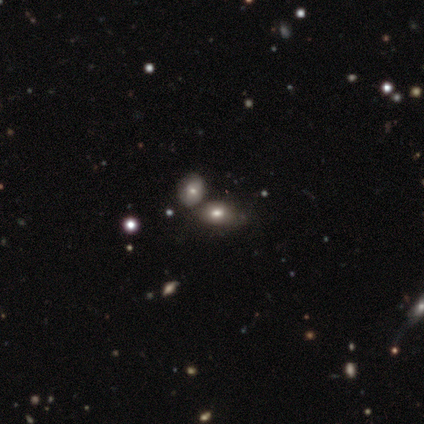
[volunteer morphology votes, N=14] Overall: smooth (64%). How rounded: in between (100%). Merging: merger (55%; none 27%).